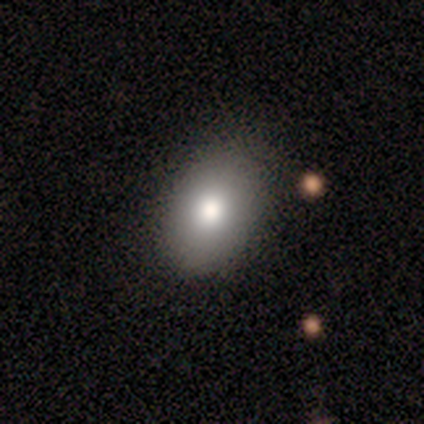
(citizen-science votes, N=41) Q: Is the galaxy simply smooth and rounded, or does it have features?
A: smooth — 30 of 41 (73%).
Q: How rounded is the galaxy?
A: in between — 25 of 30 (83%).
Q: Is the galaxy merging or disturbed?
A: none — 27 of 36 (75%).